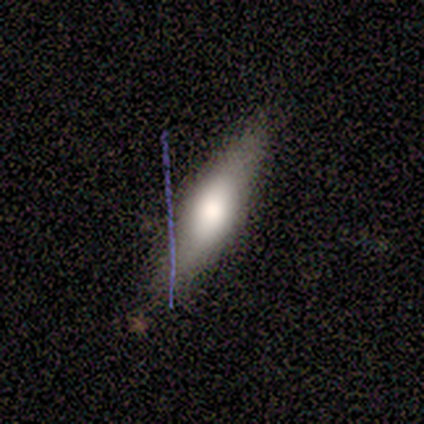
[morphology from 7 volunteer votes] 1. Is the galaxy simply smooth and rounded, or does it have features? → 57% featured or disk, 29% smooth, 14% star or artifact.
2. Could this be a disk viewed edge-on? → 75% yes, 25% no.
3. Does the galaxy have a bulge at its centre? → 100% rounded, 0% boxy, 0% none.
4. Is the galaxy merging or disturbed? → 83% none, 17% minor disturbance, 0% major disturbance, 0% merger.